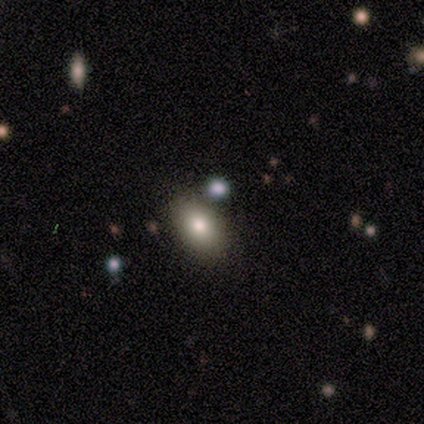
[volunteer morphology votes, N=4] type=smooth (50%, tied with featured or disk); roundness=in between (100%); merging=none (75%).